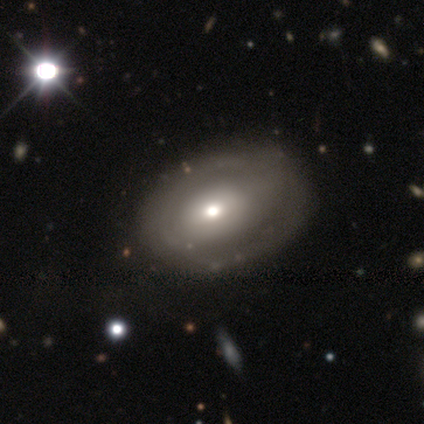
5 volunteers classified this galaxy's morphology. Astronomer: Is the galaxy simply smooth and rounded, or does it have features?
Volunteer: featured or disk — 60% (runner-up: smooth, 40%).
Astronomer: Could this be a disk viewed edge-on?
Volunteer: no — 100%.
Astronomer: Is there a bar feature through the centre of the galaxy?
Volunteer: no — 67%.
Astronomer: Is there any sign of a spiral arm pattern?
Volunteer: no — 100%.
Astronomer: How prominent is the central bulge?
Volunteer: small — 67%.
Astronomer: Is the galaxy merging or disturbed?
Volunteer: none — 100%.